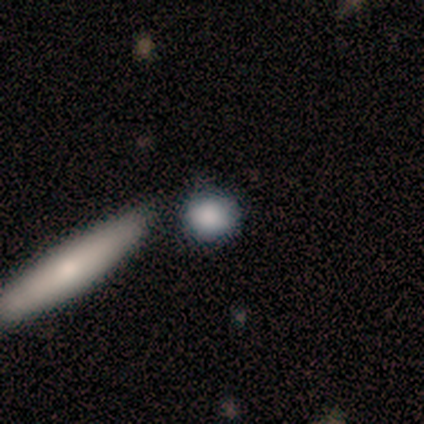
Morphology: type=smooth (100%); roundness=round (83%); merging=none (100%).